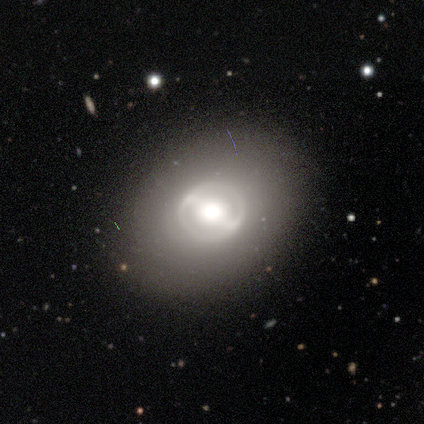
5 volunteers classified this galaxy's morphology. Smooth or featured: featured or disk — 60% (smooth — 40%)
Edge-on disk: no — 100%
Bar: strong — 67% (no — 33%)
Spiral arms: yes — 67% (no — 33%)
Spiral winding: tight — 50% (tied with loose — 50%)
Spiral arm count: 2 — 100%
Bulge size: large — 100%
Merging: none — 60% (major disturbance — 20%)